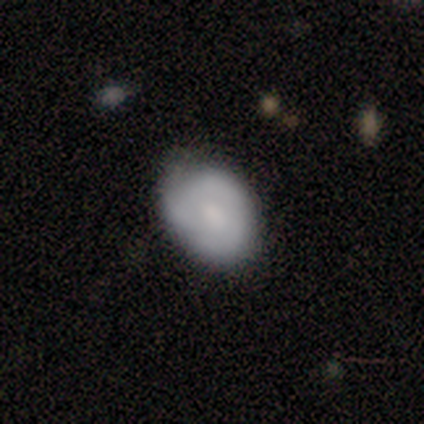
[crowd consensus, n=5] Smooth or featured: smooth — 80% (star or artifact — 20%)
How rounded: in between — 75% (round — 25%)
Merging: none — 50% (tied with minor disturbance — 50%)